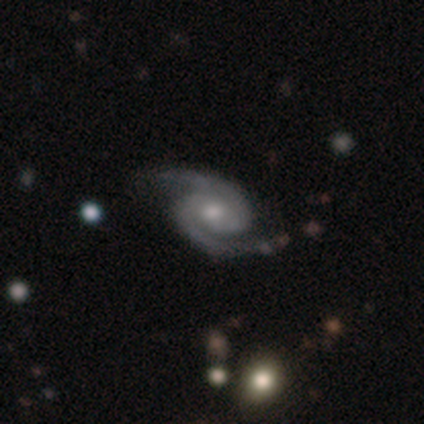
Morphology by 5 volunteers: Q: Smooth or featured?
A: featured or disk (100%)
Q: Edge-on disk?
A: no (100%)
Q: Bar?
A: no (80%); runner-up: weak (20%)
Q: Spiral arms?
A: yes (100%)
Q: Spiral winding?
A: medium (60%); runner-up: tight (40%)
Q: Spiral arm count?
A: 2 (100%)
Q: Bulge size?
A: small (60%); runner-up: large (20%)
Q: Merging?
A: none (100%)